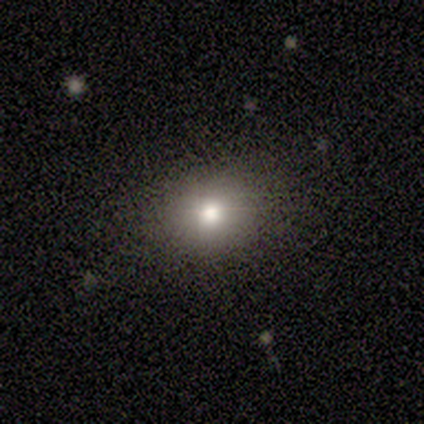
A smooth galaxy with no disk features (40%, tied with featured or disk) that is round (50%, tied with in between).

Vote fractions:
- Smooth or featured? smooth: 40% (tied) / featured or disk: 40% (tied) / star or artifact: 20%
- How rounded? round: 50% (tied) / in between: 50% (tied) / cigar-shaped: 0%
- Merging? none: 75% / minor disturbance: 25% / major disturbance: 0% / merger: 0%